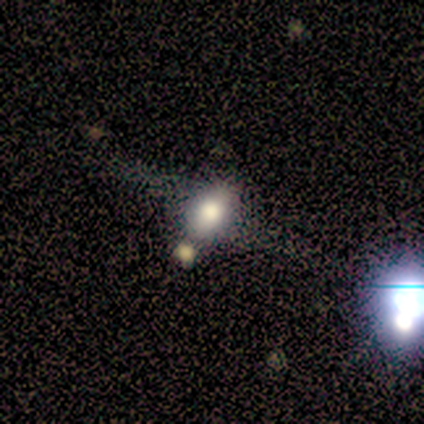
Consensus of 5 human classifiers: smooth_or_featured: smooth (p=0.40) [tied with: featured or disk p=0.40]
how_rounded: round (p=0.50) [tied with: in between p=0.50]
merging: none (p=0.50) [alt: major disturbance p=0.25]